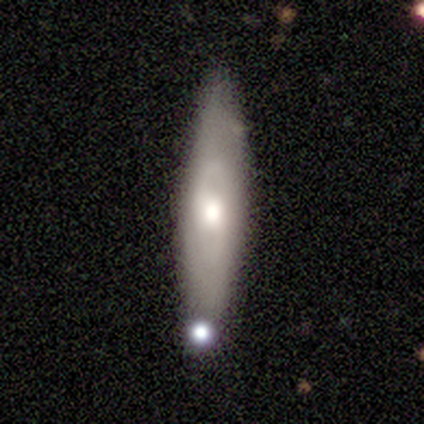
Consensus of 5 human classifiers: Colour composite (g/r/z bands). It shows a smooth galaxy with no disk features (40%, tied with featured or disk) that is cigar-shaped (100%). Merging: none (50%, tied with minor disturbance).